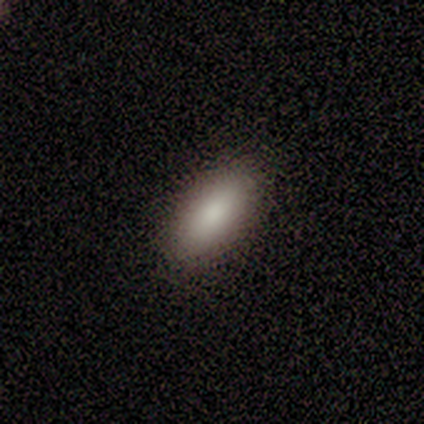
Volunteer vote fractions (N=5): Volunteers were most divided on "merging": none: 80%, minor disturbance: 20%, major disturbance: 0%, merger: 0%. More confident: smooth or featured — smooth (100%); how rounded — in between (100%).